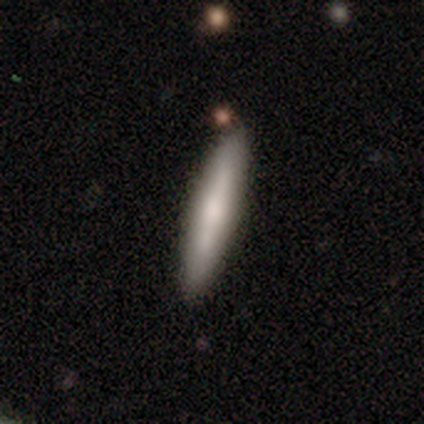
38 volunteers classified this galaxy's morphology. Smooth or featured: smooth — 53% (featured or disk — 45%)
How rounded: cigar-shaped — 70% (in between — 25%)
Merging: none — 76% (minor disturbance — 11%)